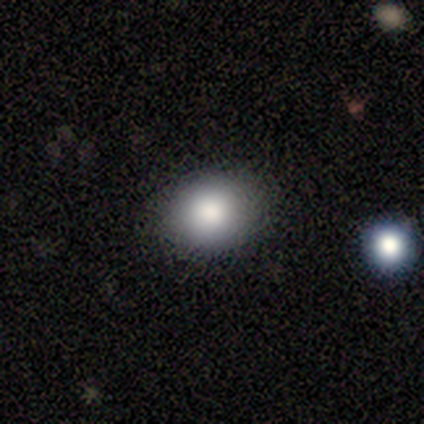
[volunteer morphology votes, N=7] Volunteers were most divided on "how rounded": round: 67%, in between: 33%, cigar-shaped: 0%. More confident: smooth or featured — smooth (86%); merging — none (83%).